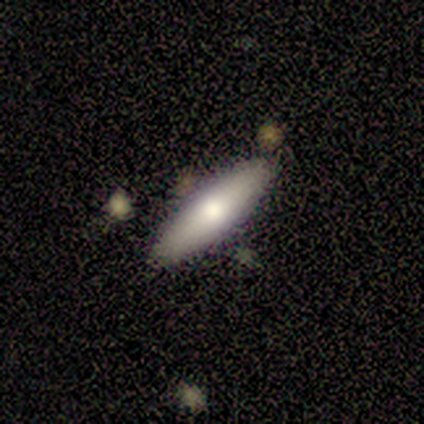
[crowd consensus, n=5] This appears to be a smooth galaxy with no disk features (80%) that is in between round and cigar-shaped (50%, tied with cigar-shaped). Merging: none (100%).